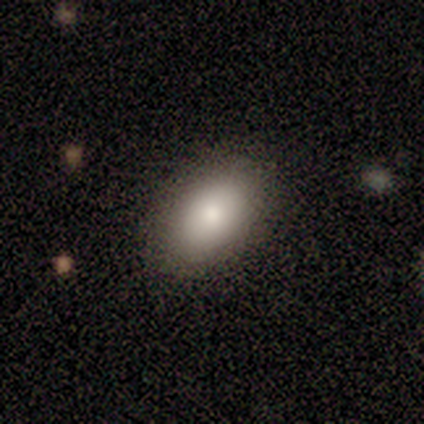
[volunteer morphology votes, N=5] Q: Smooth or featured?
A: smooth (100%)
Q: How rounded?
A: in between (100%)
Q: Merging?
A: none (80%); runner-up: minor disturbance (20%)